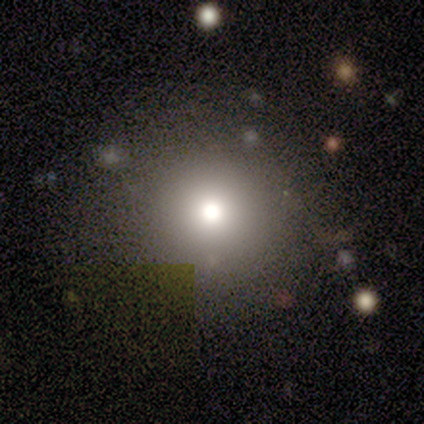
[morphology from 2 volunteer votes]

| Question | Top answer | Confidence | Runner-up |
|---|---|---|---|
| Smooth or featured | smooth | 50% | tied: featured or disk (50%) |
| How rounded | round | 100% | — |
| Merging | none | 50% | tied: minor disturbance (50%) |